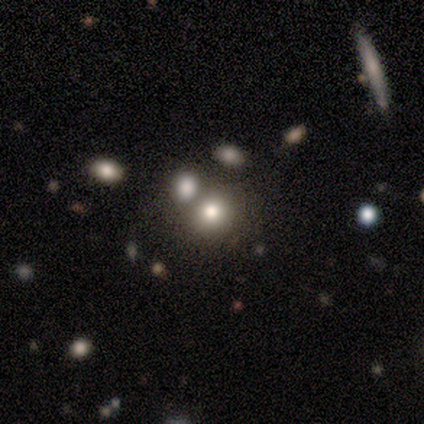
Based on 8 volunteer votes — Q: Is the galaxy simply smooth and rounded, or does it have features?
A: smooth — 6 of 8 (75%).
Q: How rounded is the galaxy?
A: round — 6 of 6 (100%).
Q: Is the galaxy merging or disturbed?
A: merger — 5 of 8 (62%).